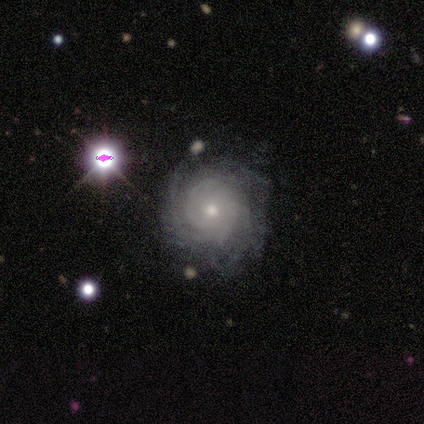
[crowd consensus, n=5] Q: Smooth or featured?
A: featured or disk (60%); runner-up: smooth (20%)
Q: Edge-on disk?
A: no (100%)
Q: Bar?
A: no (67%); runner-up: weak (33%)
Q: Spiral arms?
A: yes (100%)
Q: Spiral winding?
A: tight (100%)
Q: Spiral arm count?
A: can't tell (67%); runner-up: 4 (33%)
Q: Bulge size?
A: moderate (67%); runner-up: small (33%)
Q: Merging?
A: none (75%); runner-up: minor disturbance (25%)